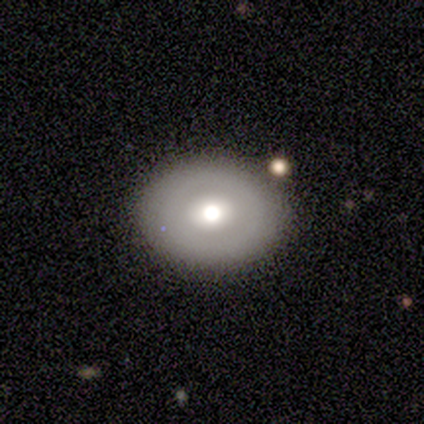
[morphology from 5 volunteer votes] Q: Smooth or featured?
A: smooth (80%); runner-up: featured or disk (20%)
Q: How rounded?
A: in between (75%); runner-up: round (25%)
Q: Merging?
A: none (80%); runner-up: merger (20%)